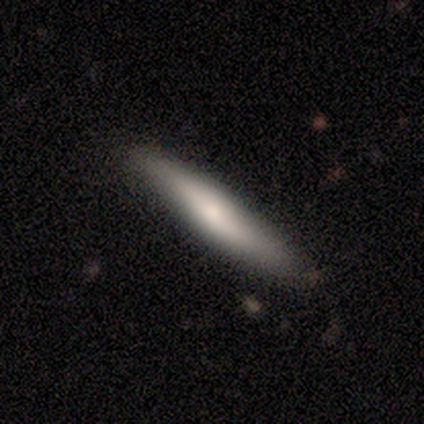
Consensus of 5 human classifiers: smooth_or_featured: smooth (p=0.60) [alt: featured or disk p=0.40]
how_rounded: cigar-shaped (p=1.00)
merging: none (p=0.80) [alt: minor disturbance p=0.20]